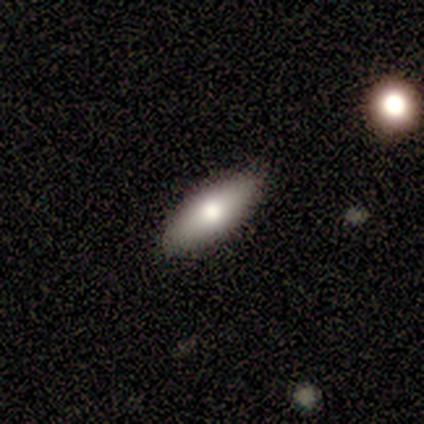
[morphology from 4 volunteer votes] Smooth or featured: smooth — 100%
How rounded: in between — 75% (cigar-shaped — 25%)
Merging: none — 100%